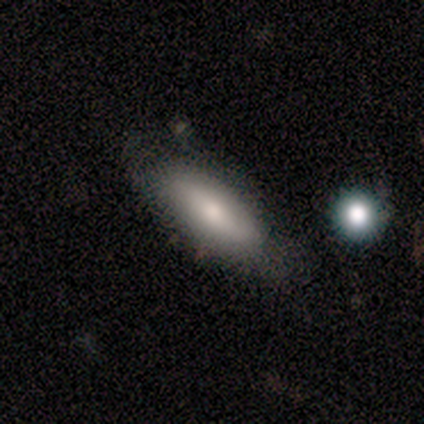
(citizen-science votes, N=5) smooth_or_featured: smooth (p=0.40) [tied with: featured or disk p=0.40]
how_rounded: in between (p=1.00)
merging: none (p=0.50) [alt: minor disturbance p=0.25]